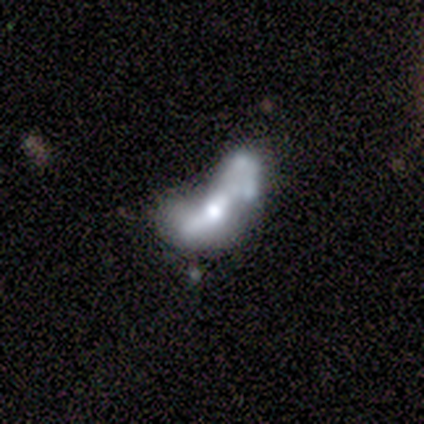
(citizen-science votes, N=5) Q: Smooth or featured?
A: featured or disk (60%); runner-up: smooth (40%)
Q: Edge-on disk?
A: no (100%)
Q: Bar?
A: no (67%); runner-up: weak (33%)
Q: Spiral arms?
A: no (67%); runner-up: yes (33%)
Q: Bulge size?
A: moderate (100%)
Q: Merging?
A: merger (60%); runner-up: none (20%)